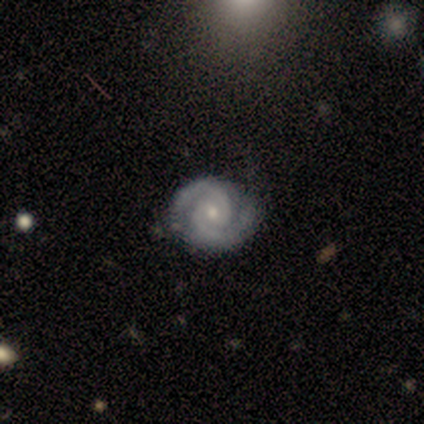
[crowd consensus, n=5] featured or disk 100%, smooth 0%, star or artifact 0%. Down the decision tree: edge-on disk — no (100%); bar — weak (60%); spiral arms — yes (100%); spiral arm count — 2 (100%); spiral winding — medium (60%); bulge size — moderate (60%); merging — none (100%).